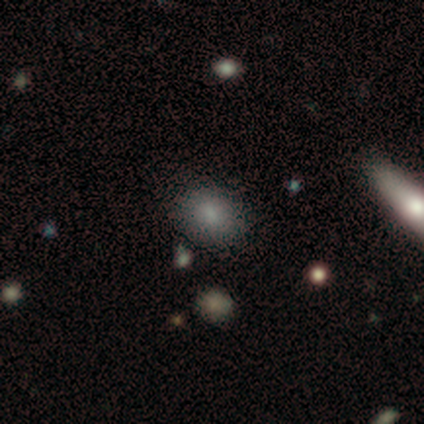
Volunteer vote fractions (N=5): A smooth galaxy with no disk features (60%) that is in between round and cigar-shaped (67%).

Vote fractions:
- Smooth or featured? smooth: 60% / featured or disk: 40% / star or artifact: 0%
- How rounded? in between: 67% / round: 33% / cigar-shaped: 0%
- Merging? none: 60% / minor disturbance: 20% / major disturbance: 20% / merger: 0%